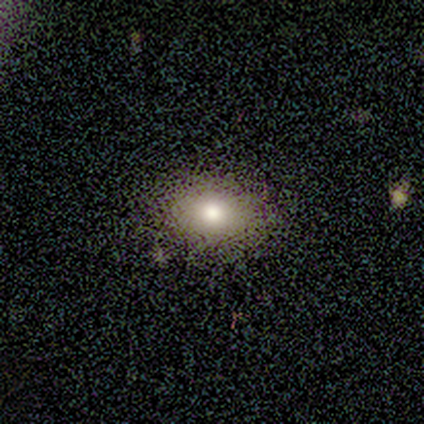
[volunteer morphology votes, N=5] smooth-or-featured: smooth: 60% | star or artifact: 40% | featured or disk: 0%
  how-rounded: in between: 100% | round: 0% | cigar-shaped: 0%
  merging: none: 100% | minor disturbance: 0% | major disturbance: 0% | merger: 0%